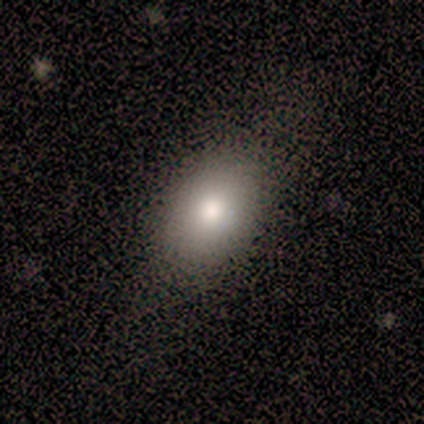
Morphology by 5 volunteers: This appears to be a smooth galaxy with no disk features (80%) that is in between round and cigar-shaped (75%). Merging: none (100%).